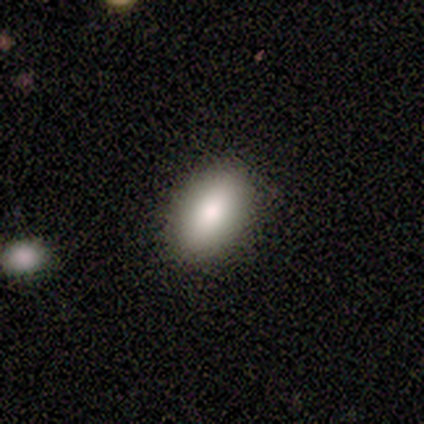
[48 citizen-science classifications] Overall: smooth (88%). How rounded: in between (93%). Merging: none (89%).